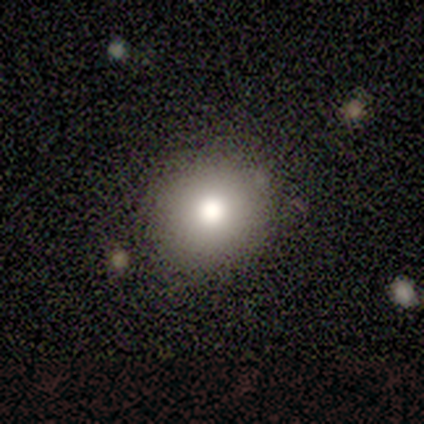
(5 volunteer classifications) A smooth galaxy with no disk features (80%) that is round (50%, tied with in between).

Vote fractions:
- Smooth or featured? smooth: 80% / star or artifact: 20% / featured or disk: 0%
- How rounded? round: 50% (tied) / in between: 50% (tied) / cigar-shaped: 0%
- Merging? none: 100% / minor disturbance: 0% / major disturbance: 0% / merger: 0%